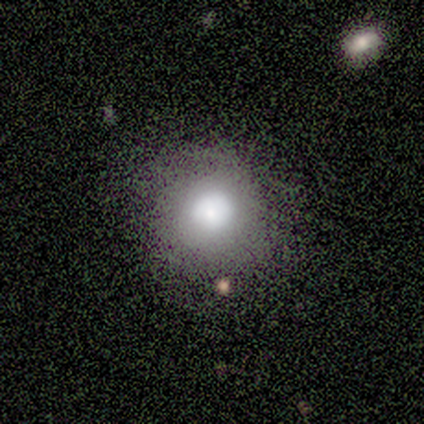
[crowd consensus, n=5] smooth_or_featured: smooth (p=1.00)
how_rounded: round (p=1.00)
merging: none (p=0.80) [alt: minor disturbance p=0.20]